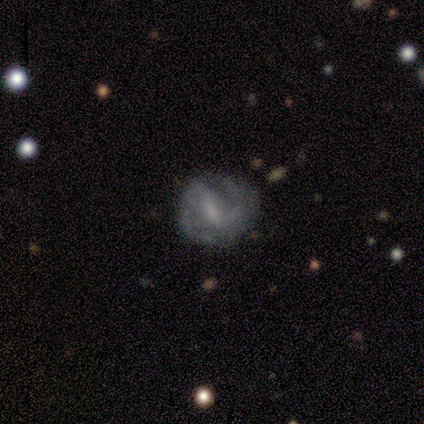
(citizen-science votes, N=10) Smooth or featured?
  - featured or disk: 80% *
  - smooth: 20%
  - star or artifact: 0%
Edge-on disk?
  - no: 88% *
  - yes: 12%
Bar?
  - strong: 71% *
  - weak: 29%
  - no: 0%
Spiral arms?
  - yes: 86% *
  - no: 14%
Spiral winding?
  - medium: 67% *
  - tight: 33%
  - loose: 0%
Spiral arm count?
  - 2: 83% *
  - can't tell: 17%
  - 1: 0%
  - 3: 0%
  - 4: 0%
  - more than 4: 0%
Bulge size?
  - small: 71% *
  - moderate: 29%
  - dominant: 0%
  - large: 0%
  - none: 0%
Merging?
  - none: 60% *
  - minor disturbance: 30%
  - major disturbance: 10%
  - merger: 0%